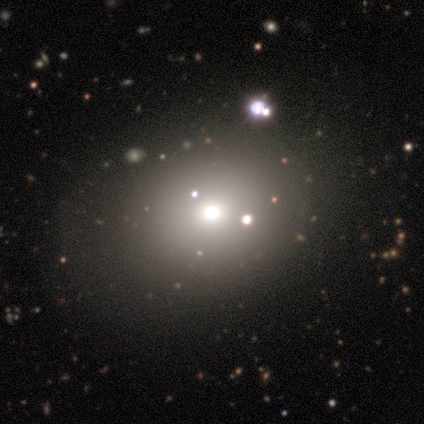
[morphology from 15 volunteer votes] This is likely a smooth galaxy (60%). How rounded: possibly in between (56%). Merging: clearly none (91%).